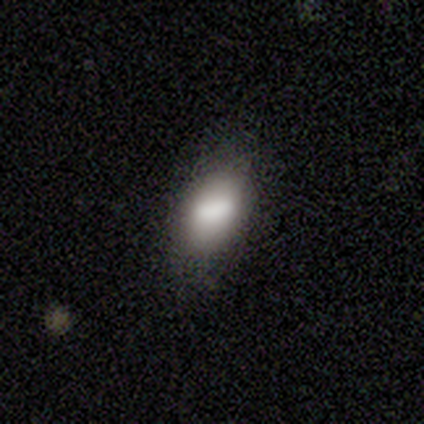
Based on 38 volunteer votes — Smooth or featured? smooth (71%)
How rounded? in between (81%)
Merging? none (78%)